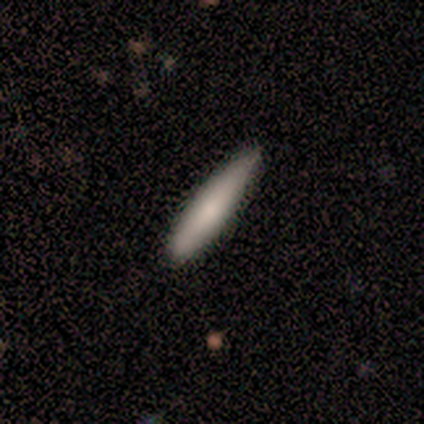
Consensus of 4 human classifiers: Morphology: type=smooth (75%); roundness=cigar-shaped (100%); merging=none (75%).